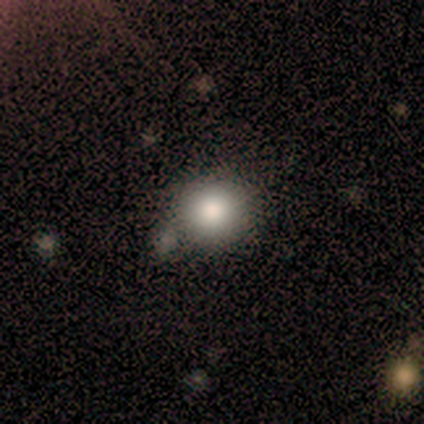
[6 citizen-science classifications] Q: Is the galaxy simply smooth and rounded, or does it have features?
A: smooth — 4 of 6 (67%).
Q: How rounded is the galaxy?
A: round — 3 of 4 (75%).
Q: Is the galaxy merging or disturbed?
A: none — 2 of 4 (50%).